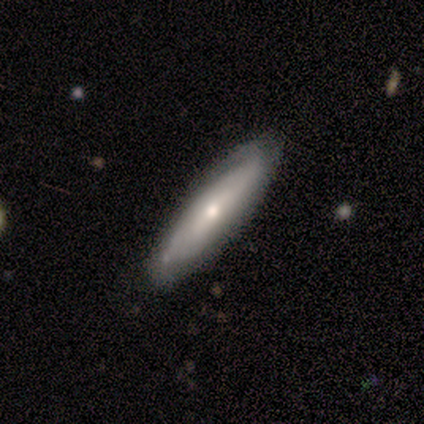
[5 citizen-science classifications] smooth-or-featured: featured or disk: 60% | smooth: 20% | star or artifact: 20%
  disk-edge-on: no: 67% | yes: 33%
    bar: strong: 50% (tied) | no: 50% (tied) | weak: 0%
    has-spiral-arms: yes: 50% (tied) | no: 50% (tied)
      spiral-winding: tight: 100% | medium: 0% | loose: 0%
      spiral-arm-count: 2: 100% | 1: 0% | 3: 0% | 4: 0% | more than 4: 0% | can't tell: 0%
    bulge-size: moderate: 100% | dominant: 0% | large: 0% | small: 0% | none: 0%
  merging: none: 75% | minor disturbance: 25% | major disturbance: 0% | merger: 0%